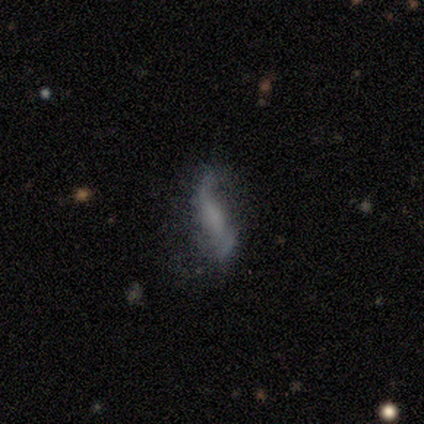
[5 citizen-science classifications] Smooth or featured? smooth (60%)
How rounded? cigar-shaped (67%)
Merging? minor disturbance (50%)